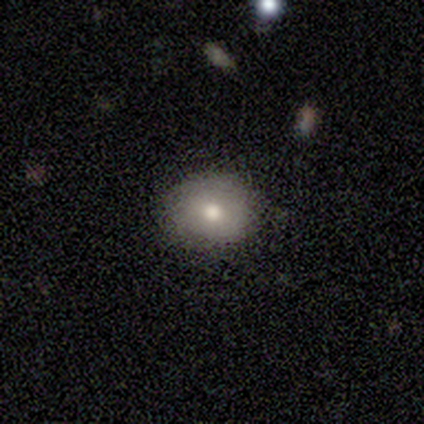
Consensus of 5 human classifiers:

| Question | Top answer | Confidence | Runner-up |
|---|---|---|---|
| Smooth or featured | smooth | 80% | star or artifact (20%) |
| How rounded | round | 75% | in between (25%) |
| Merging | none | 100% | — |